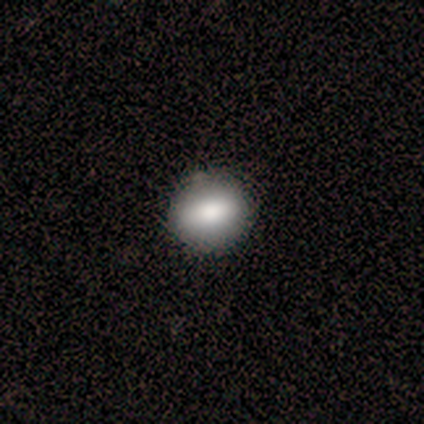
A smooth galaxy with no disk features (80%) that is round (75%).

Vote fractions:
- Smooth or featured? smooth: 80% / featured or disk: 20% / star or artifact: 0%
- How rounded? round: 75% / in between: 25% / cigar-shaped: 0%
- Merging? none: 100% / minor disturbance: 0% / major disturbance: 0% / merger: 0%